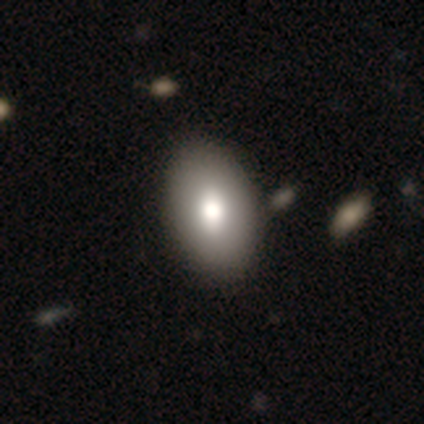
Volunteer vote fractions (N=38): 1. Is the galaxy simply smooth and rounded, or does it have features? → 87% smooth, 11% featured or disk, 3% star or artifact.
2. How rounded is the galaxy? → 94% in between, 6% round, 0% cigar-shaped.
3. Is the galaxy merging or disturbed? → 59% none, 3% minor disturbance, 3% merger, 0% major disturbance.